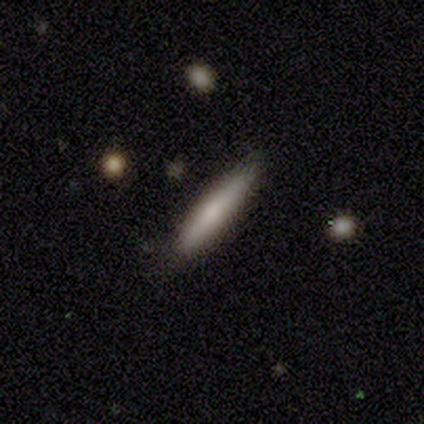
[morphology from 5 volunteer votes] smooth 100%, featured or disk 0%, star or artifact 0%. Down the decision tree: how rounded — cigar-shaped (100%); merging — none (100%).